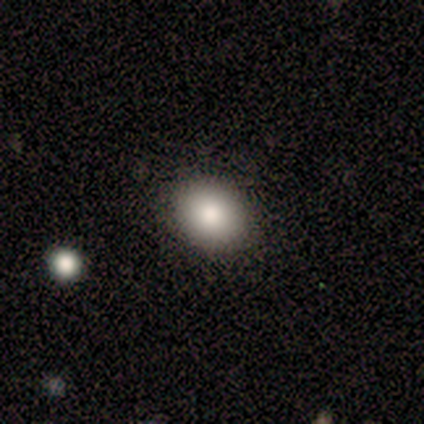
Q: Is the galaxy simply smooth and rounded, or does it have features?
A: smooth — 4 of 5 (80%).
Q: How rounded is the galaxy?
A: round — 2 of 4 (50%, tied with in between).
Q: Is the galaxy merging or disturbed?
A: none — 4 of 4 (100%).